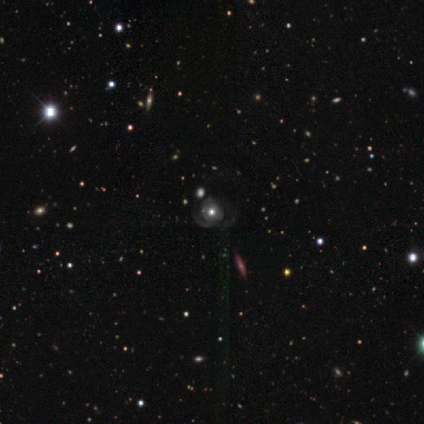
Overall: featured or disk (75%). Edge-on disk: no (100%). Bar: no (67%; weak 33%). Spiral arms: no (67%; yes 33%). Bulge size: moderate (67%; large 33%). Merging: major disturbance (100%).